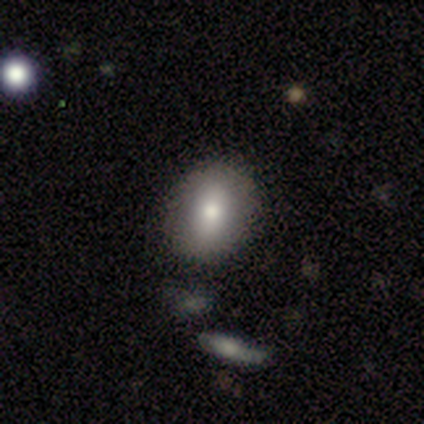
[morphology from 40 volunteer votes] A smooth galaxy with no disk features (78%) that is in between round and cigar-shaped (55%). Merging: none (81%).